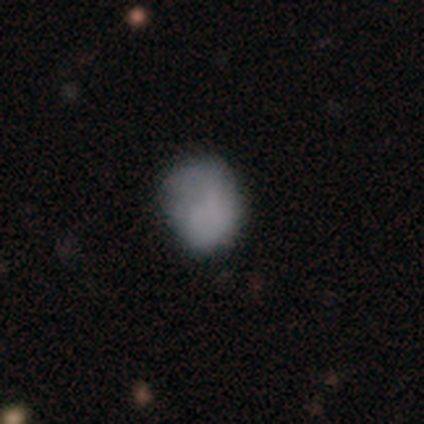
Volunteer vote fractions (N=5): smooth 80%, featured or disk 20%, star or artifact 0%. Down the decision tree: how rounded — round (100%); merging — none (100%).